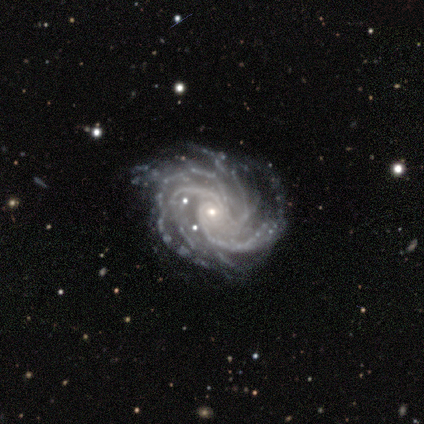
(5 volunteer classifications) Smooth or featured?
  - featured or disk: 80% *
  - star or artifact: 20%
  - smooth: 0%
Edge-on disk?
  - no: 100% *
  - yes: 0%
Bar?
  - no: 75% *
  - weak: 25%
  - strong: 0%
Spiral arms?
  - yes: 100% *
  - no: 0%
Spiral winding?
  - tight: 75% *
  - medium: 25%
  - loose: 0%
Spiral arm count?
  - 4: 50% * (tied)
  - more than 4: 50% * (tied)
  - 1: 0%
  - 2: 0%
  - 3: 0%
  - can't tell: 0%
Bulge size?
  - small: 75% *
  - moderate: 25%
  - dominant: 0%
  - large: 0%
  - none: 0%
Merging?
  - none: 50% *
  - minor disturbance: 25%
  - major disturbance: 25%
  - merger: 0%